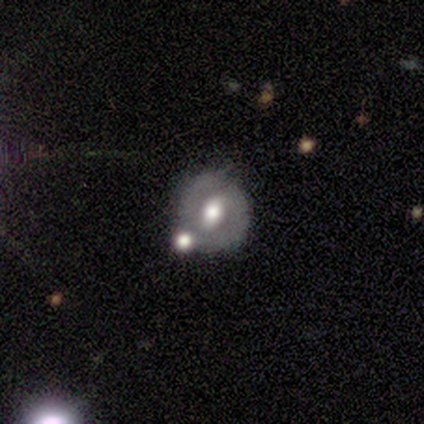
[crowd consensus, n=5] Smooth or featured: smooth — 60% (featured or disk — 20%)
How rounded: round — 100%
Merging: none — 50% (tied with merger — 50%)